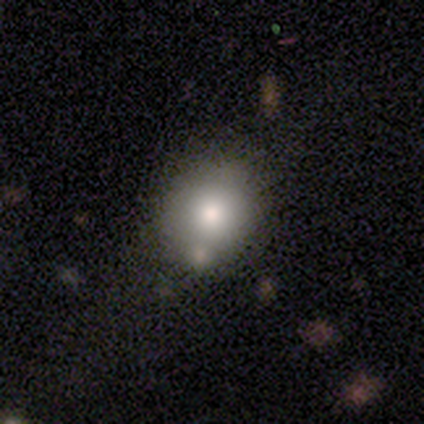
smooth_or_featured: smooth (p=0.77) [alt: featured or disk p=0.17]
how_rounded: round (p=0.78) [alt: in between p=0.22]
merging: none (p=0.64) [alt: minor disturbance p=0.21]